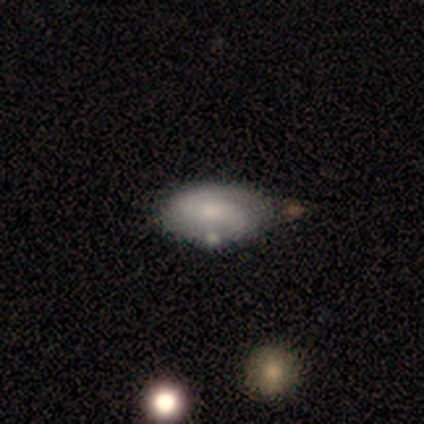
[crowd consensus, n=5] Smooth or featured? featured or disk (60%)
Edge-on disk? no (100%)
Bar? no (67%)
Spiral arms? yes (100%)
Spiral winding? medium (67%)
Spiral arm count? 2 (100%)
Bulge size? small (100%)
Merging? minor disturbance (60%)